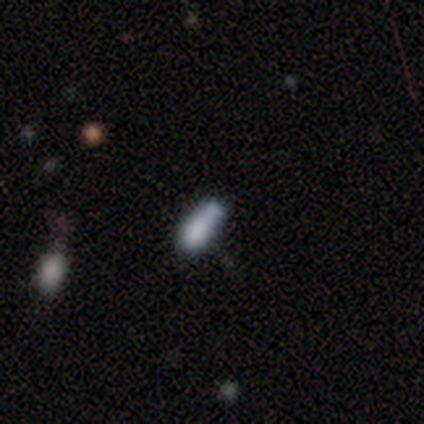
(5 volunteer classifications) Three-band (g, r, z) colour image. It shows a smooth galaxy with no disk features (80%) that is in between round and cigar-shaped (75%). Merging: none (50%, tied with minor disturbance).